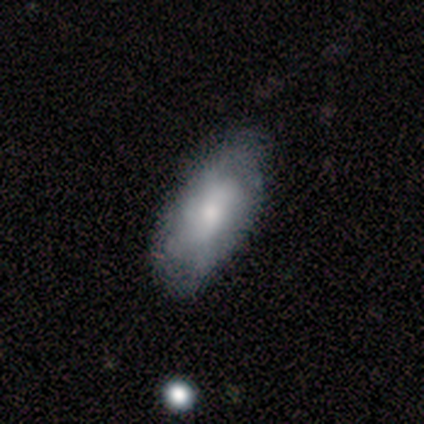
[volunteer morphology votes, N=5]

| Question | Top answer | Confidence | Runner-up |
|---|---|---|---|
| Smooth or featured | smooth | 60% | featured or disk (40%) |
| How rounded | in between | 100% | — |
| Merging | none | 100% | — |